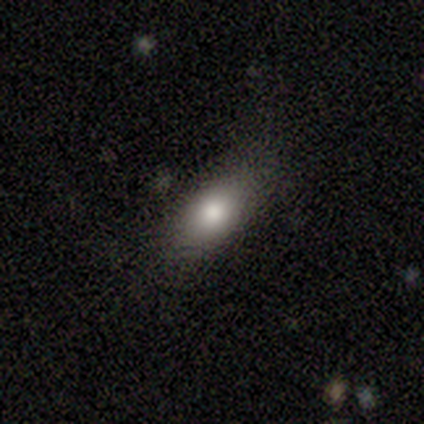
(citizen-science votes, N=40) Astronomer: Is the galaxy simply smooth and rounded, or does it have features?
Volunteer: smooth — 78%.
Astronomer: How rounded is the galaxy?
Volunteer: in between — 90%.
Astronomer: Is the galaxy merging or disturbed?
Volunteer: none — 69%.